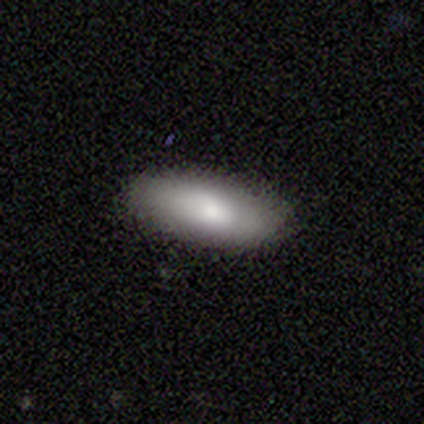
smooth-or-featured: smooth: 82% | featured or disk: 15% | star or artifact: 3%
  how-rounded: in between: 75% | cigar-shaped: 22% | round: 3%
  merging: none: 87% | minor disturbance: 11% | merger: 3% | major disturbance: 0%